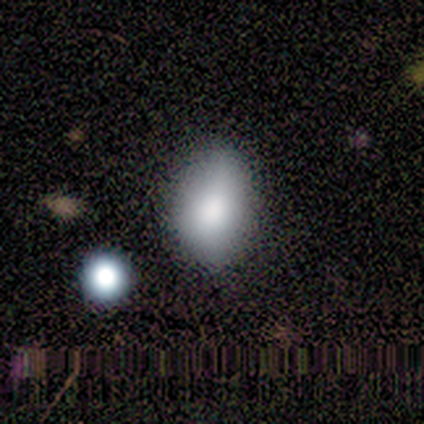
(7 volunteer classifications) Q: Smooth or featured?
A: smooth (86%); runner-up: featured or disk (14%)
Q: How rounded?
A: in between (83%); runner-up: round (17%)
Q: Merging?
A: none (100%)